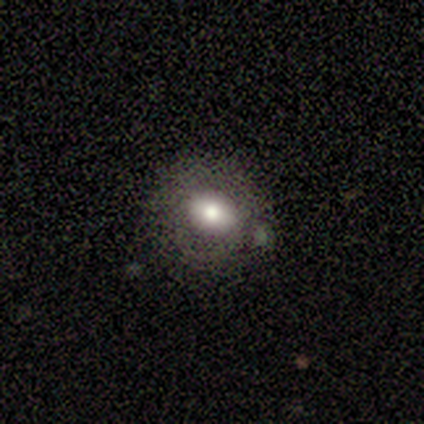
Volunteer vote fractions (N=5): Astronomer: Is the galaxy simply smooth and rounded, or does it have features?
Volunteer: smooth — 60%.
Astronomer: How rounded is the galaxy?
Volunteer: round — 67%.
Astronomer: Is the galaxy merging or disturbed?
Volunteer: none — 100%.